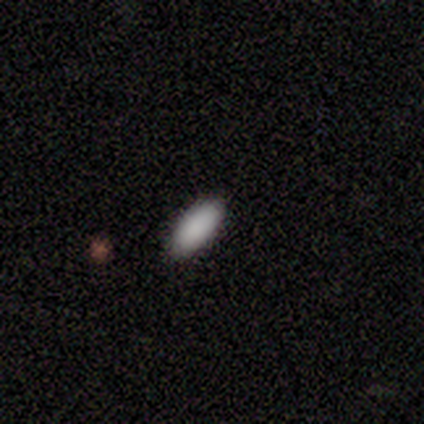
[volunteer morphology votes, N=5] smooth_or_featured: smooth (p=1.00)
how_rounded: in between (p=1.00)
merging: none (p=0.80) [alt: minor disturbance p=0.20]